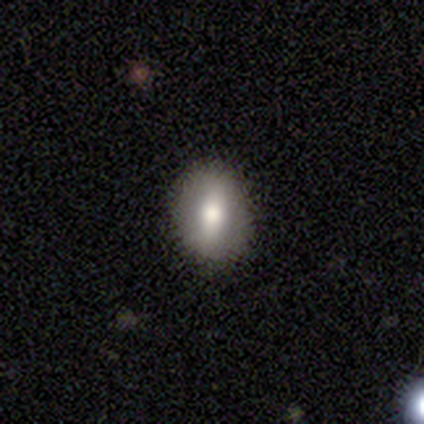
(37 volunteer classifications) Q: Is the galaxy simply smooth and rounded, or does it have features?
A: smooth — 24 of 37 (65%).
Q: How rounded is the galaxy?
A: in between — 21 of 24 (88%).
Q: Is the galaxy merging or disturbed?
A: none — 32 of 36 (89%).